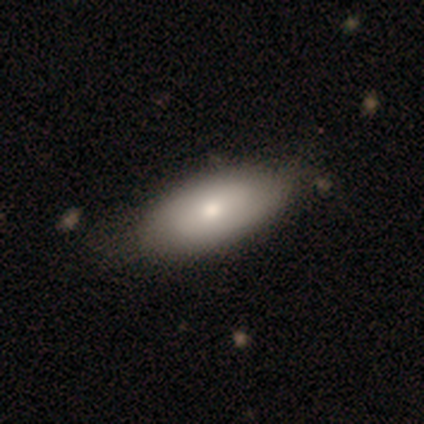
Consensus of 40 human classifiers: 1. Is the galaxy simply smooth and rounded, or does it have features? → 68% smooth, 30% featured or disk, 2% star or artifact.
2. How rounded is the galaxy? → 100% in between, 0% round, 0% cigar-shaped.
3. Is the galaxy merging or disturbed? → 56% none, 15% minor disturbance, 0% major disturbance, 0% merger.